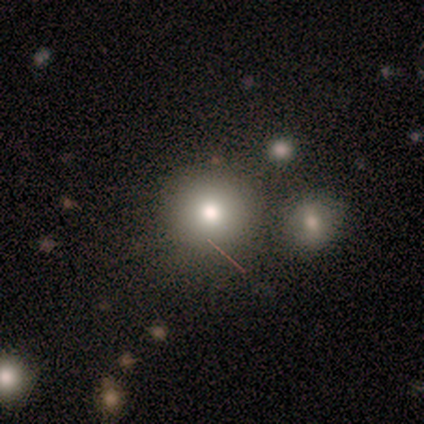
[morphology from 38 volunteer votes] Smooth or featured? smooth (68%)
How rounded? round (88%)
Merging? none (70%)